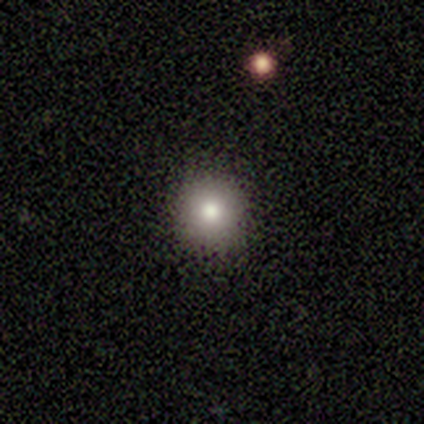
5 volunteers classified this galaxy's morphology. Volunteers were most divided on "how rounded": round: 75%, in between: 25%, cigar-shaped: 0%. More confident: merging — none (100%); smooth or featured — smooth (80%).